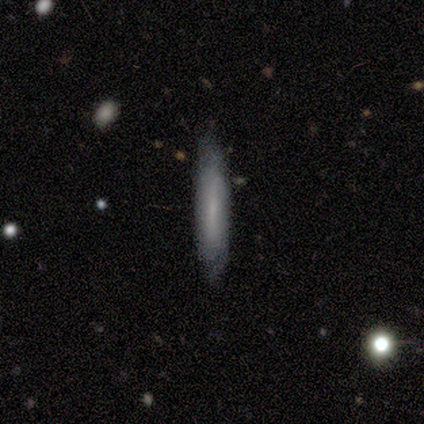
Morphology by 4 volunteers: This is likely a smooth galaxy (75%). How rounded: clearly cigar-shaped (100%). Merging: clearly none (100%).